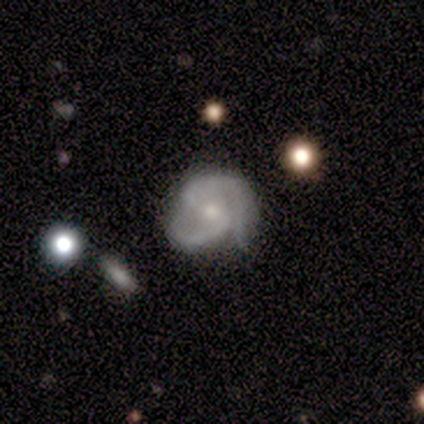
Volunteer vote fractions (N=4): smooth-or-featured: featured or disk: 75% | star or artifact: 25% | smooth: 0%
  disk-edge-on: no: 100% | yes: 0%
    bar: no: 67% | strong: 33% | weak: 0%
    has-spiral-arms: yes: 100% | no: 0%
      spiral-winding: medium: 67% | loose: 33% | tight: 0%
      spiral-arm-count: 2: 100% | 1: 0% | 3: 0% | 4: 0% | more than 4: 0% | can't tell: 0%
    bulge-size: small: 100% | dominant: 0% | large: 0% | moderate: 0% | none: 0%
  merging: none: 67% | minor disturbance: 33% | major disturbance: 0% | merger: 0%